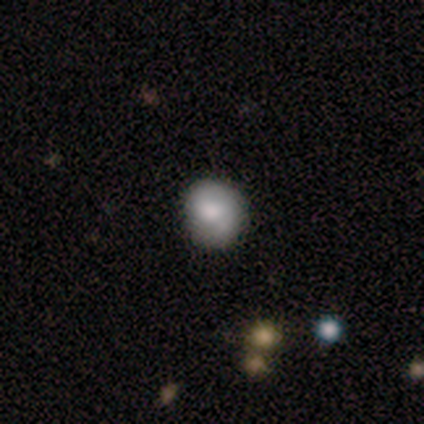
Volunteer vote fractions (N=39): smooth 62%, featured or disk 23%, star or artifact 15%. Down the decision tree: how rounded — round (71%); merging — none (76%).